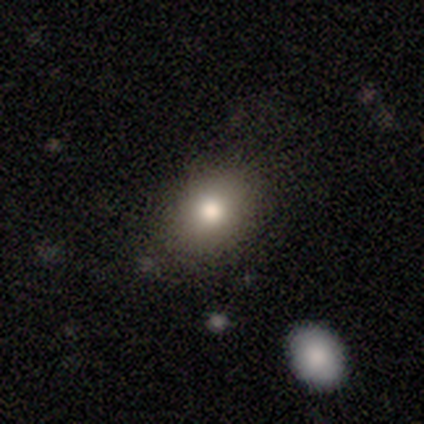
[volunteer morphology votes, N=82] Smooth or featured?
  - smooth: 73% *
  - star or artifact: 17%
  - featured or disk: 10%
How rounded?
  - in between: 58% *
  - round: 42%
  - cigar-shaped: 0%
Merging?
  - none: 76% *
  - minor disturbance: 18%
  - merger: 4%
  - major disturbance: 1%